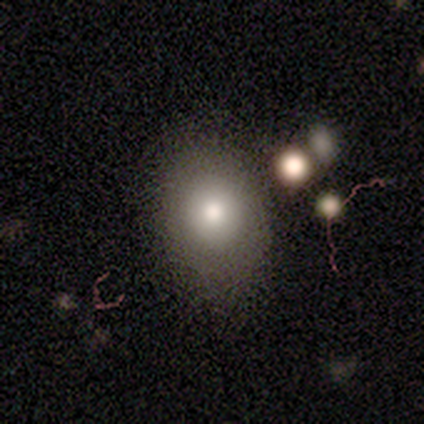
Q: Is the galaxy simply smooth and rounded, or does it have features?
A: smooth — 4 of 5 (80%).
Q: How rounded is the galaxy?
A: in between — 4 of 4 (100%).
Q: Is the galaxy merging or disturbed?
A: none — 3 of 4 (75%).